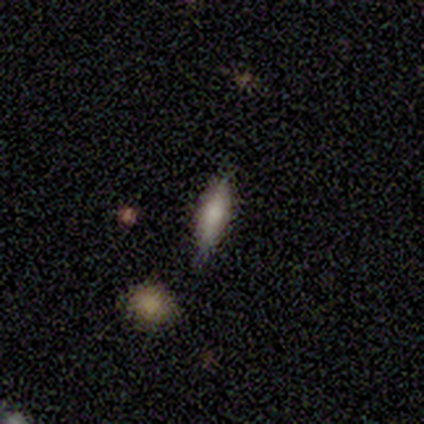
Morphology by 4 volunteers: smooth-or-featured: smooth: 75% | featured or disk: 25% | star or artifact: 0%
  how-rounded: cigar-shaped: 100% | round: 0% | in between: 0%
  merging: none: 100% | minor disturbance: 0% | major disturbance: 0% | merger: 0%